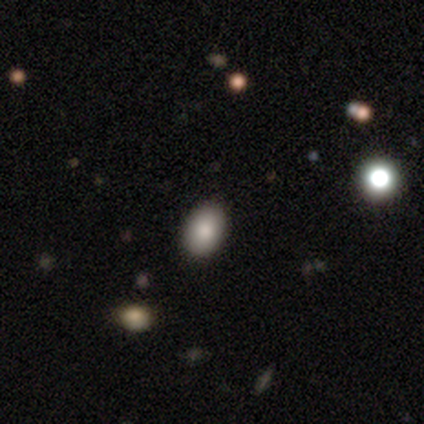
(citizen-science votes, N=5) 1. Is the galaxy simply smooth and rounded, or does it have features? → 80% smooth, 20% star or artifact, 0% featured or disk.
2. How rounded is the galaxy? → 100% in between, 0% round, 0% cigar-shaped.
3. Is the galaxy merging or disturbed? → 100% none, 0% minor disturbance, 0% major disturbance, 0% merger.